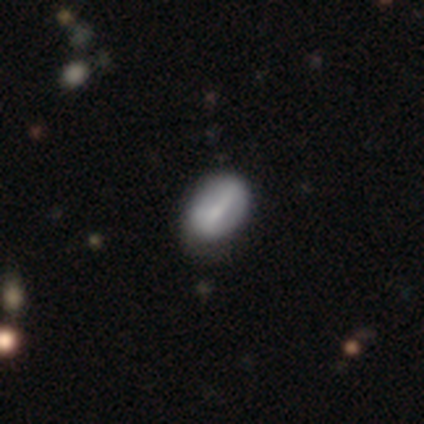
Morphology: type=smooth (68%); roundness=in between (93%); merging=none (54%).